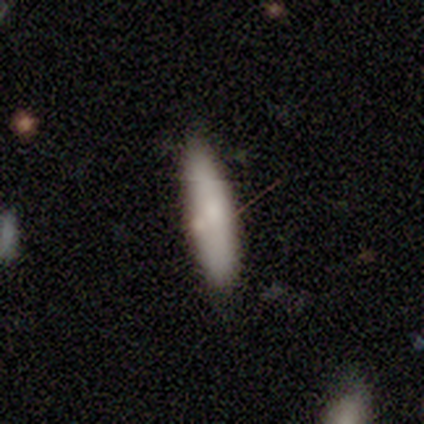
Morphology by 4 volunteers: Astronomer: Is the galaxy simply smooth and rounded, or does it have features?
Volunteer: smooth — 50%, tied with featured or disk at 50%.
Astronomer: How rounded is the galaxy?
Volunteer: cigar-shaped — 100%.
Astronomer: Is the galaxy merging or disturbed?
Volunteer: none — 50%.